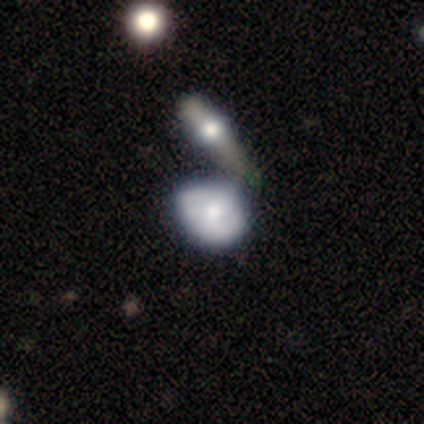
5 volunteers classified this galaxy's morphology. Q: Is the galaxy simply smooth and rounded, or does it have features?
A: smooth — 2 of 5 (40%, tied with star or artifact).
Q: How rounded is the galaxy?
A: round — 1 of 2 (50%, tied with in between).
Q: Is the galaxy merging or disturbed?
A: merger — 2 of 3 (67%).